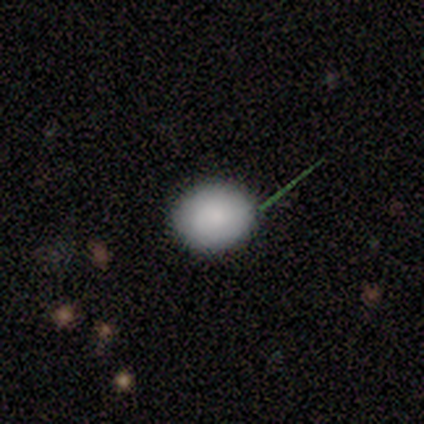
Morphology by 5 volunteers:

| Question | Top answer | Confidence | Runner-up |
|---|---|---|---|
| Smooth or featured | smooth | 60% | featured or disk (20%) |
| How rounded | round | 67% | in between (33%) |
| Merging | none | 100% | — |